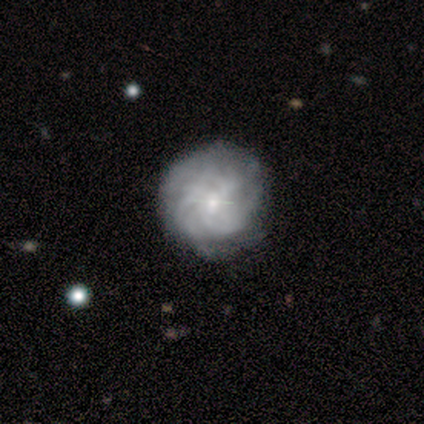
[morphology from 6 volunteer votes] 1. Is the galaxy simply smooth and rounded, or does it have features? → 67% featured or disk, 33% star or artifact, 0% smooth.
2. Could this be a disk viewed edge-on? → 75% no, 25% yes.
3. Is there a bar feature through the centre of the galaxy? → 33% strong (tied), 33% weak (tied), 33% no (tied).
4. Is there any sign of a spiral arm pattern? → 100% yes, 0% no.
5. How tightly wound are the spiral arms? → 100% tight, 0% medium, 0% loose.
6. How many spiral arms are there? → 67% more than 4, 33% can't tell, 0% 1, 0% 2, 0% 3, 0% 4.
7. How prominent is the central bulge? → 67% small, 33% none, 0% dominant, 0% large, 0% moderate.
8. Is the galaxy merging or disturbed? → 75% none, 25% merger, 0% minor disturbance, 0% major disturbance.